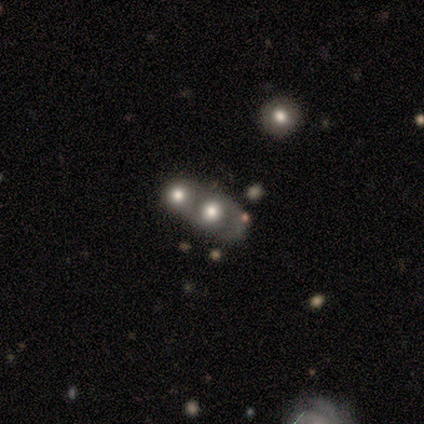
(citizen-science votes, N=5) Smooth or featured: featured or disk — 60% (smooth — 40%)
Edge-on disk: no — 67% (yes — 33%)
Bar: no — 100%
Spiral arms: yes — 50% (tied with no — 50%)
Spiral winding: medium — 100%
Spiral arm count: 2 — 100%
Bulge size: large — 100%
Merging: merger — 100%